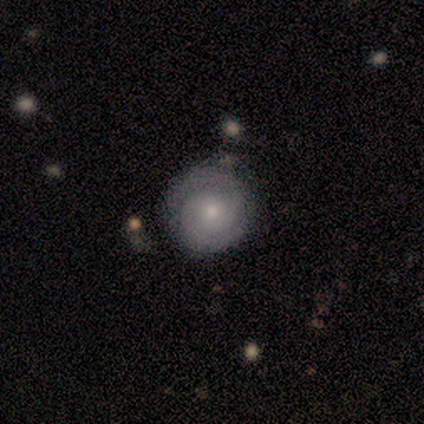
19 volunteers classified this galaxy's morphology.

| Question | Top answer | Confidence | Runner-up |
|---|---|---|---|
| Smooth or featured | featured or disk | 74% | smooth (26%) |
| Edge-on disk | no | 100% | — |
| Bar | no | 79% | strong (14%) |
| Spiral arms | yes | 100% | — |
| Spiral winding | tight | 64% | medium (36%) |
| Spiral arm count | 2 | 86% | can't tell (14%) |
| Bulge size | moderate | 50% | small (43%) |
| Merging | none | 63% | minor disturbance (32%) |